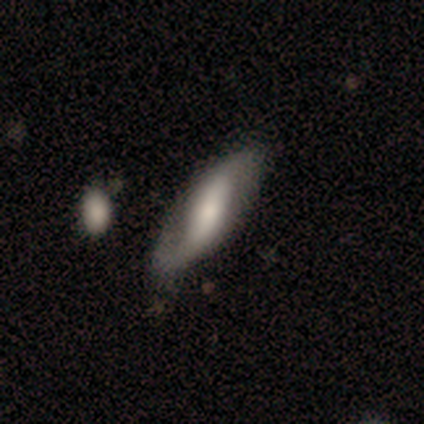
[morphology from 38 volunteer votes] Smooth or featured? featured or disk (68%)
Edge-on disk? no (88%)
Bar? strong (61%)
Spiral arms? yes (87%)
Spiral winding? loose (60%)
Spiral arm count? 2 (100%)
Bulge size? moderate (39%)
Merging? none (49%)